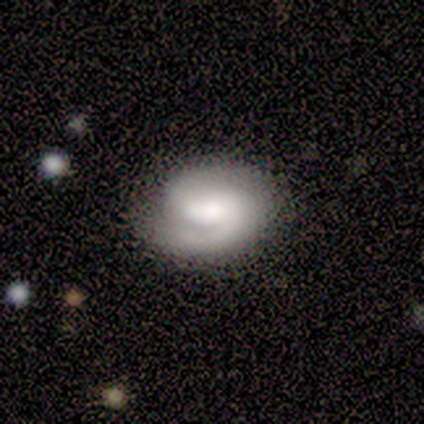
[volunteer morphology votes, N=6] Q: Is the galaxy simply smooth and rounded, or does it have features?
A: featured or disk — 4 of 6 (67%).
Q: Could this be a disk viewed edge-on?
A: no — 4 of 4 (100%).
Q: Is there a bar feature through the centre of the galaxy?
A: weak — 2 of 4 (50%, tied with no).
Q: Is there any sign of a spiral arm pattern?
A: yes — 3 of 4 (75%).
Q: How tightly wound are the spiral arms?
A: tight — 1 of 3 (33%, tied with medium and loose).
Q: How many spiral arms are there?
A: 2 — 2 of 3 (67%).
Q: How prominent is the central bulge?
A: large — 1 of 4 (25%, tied with moderate, small and none).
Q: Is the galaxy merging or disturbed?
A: none — 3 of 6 (50%, tied with minor disturbance).